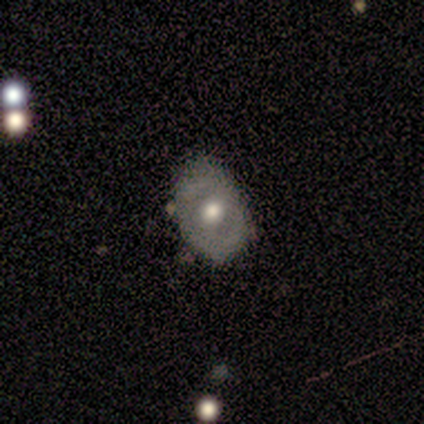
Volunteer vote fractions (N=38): featured or disk 55%, smooth 45%, star or artifact 0%. Down the decision tree: edge-on disk — no (100%); bar — no (71%); spiral arms — no (57%); bulge size — moderate (76%); merging — none (68%).